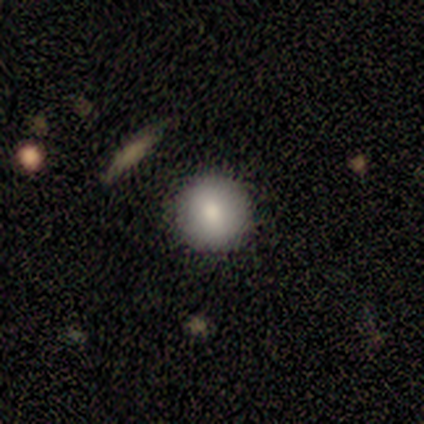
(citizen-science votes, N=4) Smooth or featured? 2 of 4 (50%) said smooth. How rounded? 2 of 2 (100%) said round. Merging? 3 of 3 (100%) said none.